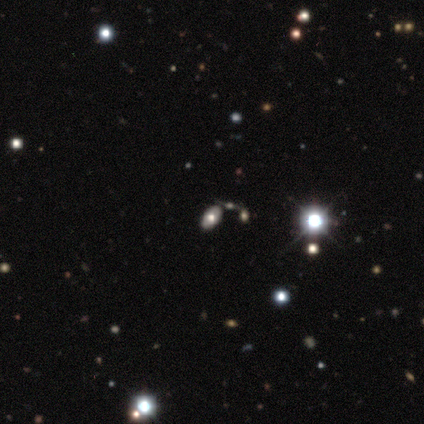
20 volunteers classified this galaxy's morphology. A smooth galaxy with no disk features (50%) that is in between round and cigar-shaped (100%). Merging: none (80%).